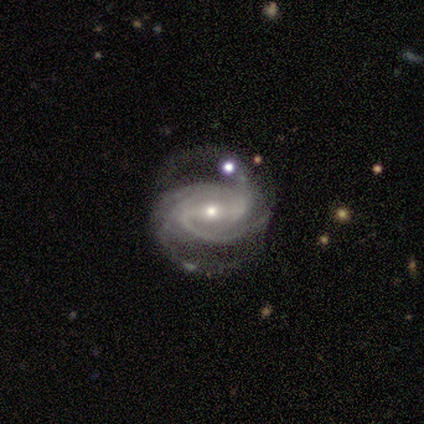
featured or disk 100%, smooth 0%, star or artifact 0%. Down the decision tree: edge-on disk — no (100%); bar — strong (60%); spiral arms — yes (100%); spiral arm count — 2 (20%, tied with 3, 4, more than 4 and can't tell); spiral winding — medium (80%); bulge size — small (80%); merging — none (80%).